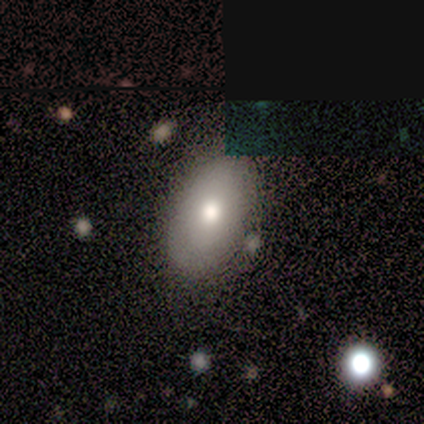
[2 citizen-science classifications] This appears to be a smooth galaxy with no disk features (50%, tied with featured or disk) that is in between round and cigar-shaped (100%). Merging: none (100%).